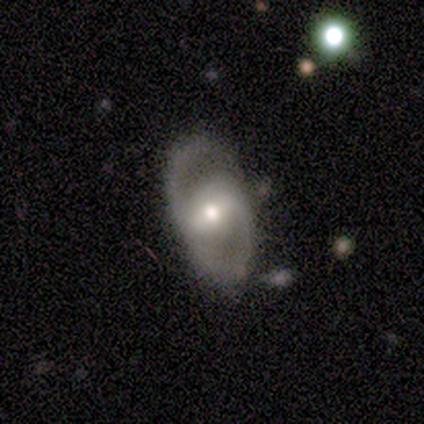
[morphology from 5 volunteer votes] Smooth or featured? featured or disk (100%)
Edge-on disk? no (100%)
Bar? strong (60%)
Spiral arms? yes (60%)
Spiral winding? tight (33%, tied with medium and loose)
Spiral arm count? 2 (100%)
Bulge size? moderate (60%)
Merging? none (80%)